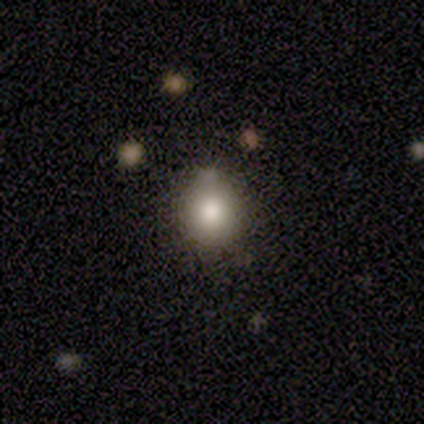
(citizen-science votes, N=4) Overall: smooth (75%). How rounded: round (67%; in between 33%). Merging: minor disturbance (67%; none 33%).